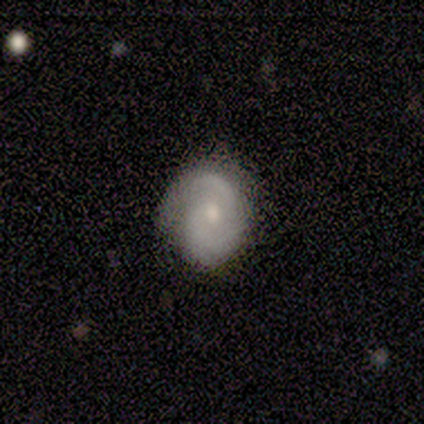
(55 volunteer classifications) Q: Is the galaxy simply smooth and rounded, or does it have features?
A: featured or disk — 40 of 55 (73%).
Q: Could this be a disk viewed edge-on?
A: no — 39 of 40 (98%).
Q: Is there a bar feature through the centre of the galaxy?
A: no — 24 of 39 (62%).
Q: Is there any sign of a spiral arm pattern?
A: yes — 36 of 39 (92%).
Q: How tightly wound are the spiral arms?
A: tight — 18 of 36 (50%).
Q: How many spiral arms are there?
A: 2 — 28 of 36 (78%).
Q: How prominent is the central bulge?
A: small — 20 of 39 (51%).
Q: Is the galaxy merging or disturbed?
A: none — 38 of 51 (75%).